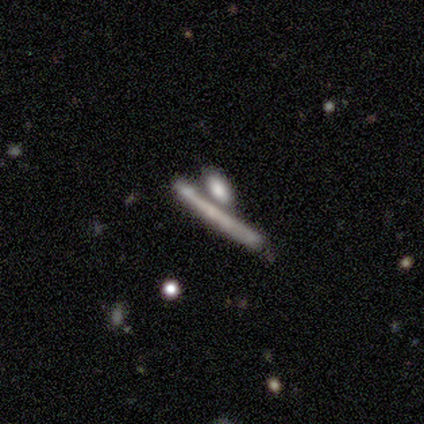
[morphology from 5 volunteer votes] Volunteers were most divided on "smooth or featured": featured or disk: 60%, smooth: 40%, star or artifact: 0%. More confident: bar — no (100%); spiral arms — no (100%); bulge size — none (100%); merging — none (80%); edge-on disk — no (67%).